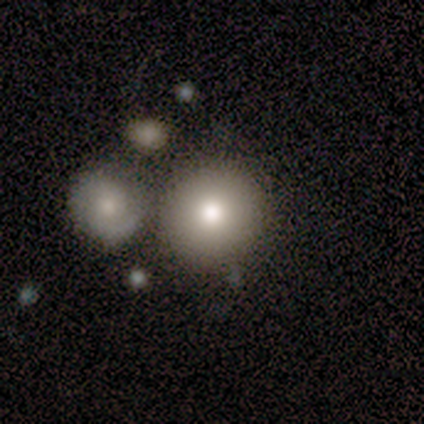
This appears to be a smooth galaxy with no disk features (78%) that is round (100%). Merging: none (76%).